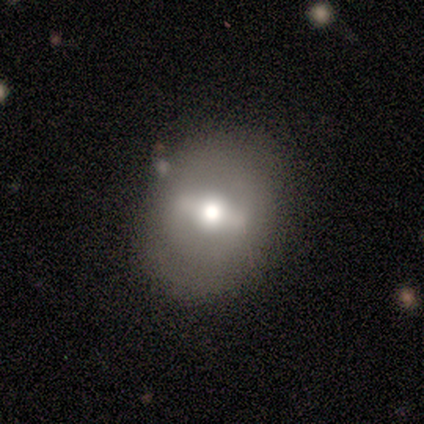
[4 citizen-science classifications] Smooth or featured? featured or disk (75%)
Edge-on disk? no (100%)
Bar? strong (67%)
Spiral arms? no (100%)
Bulge size? moderate (100%)
Merging? none (75%)